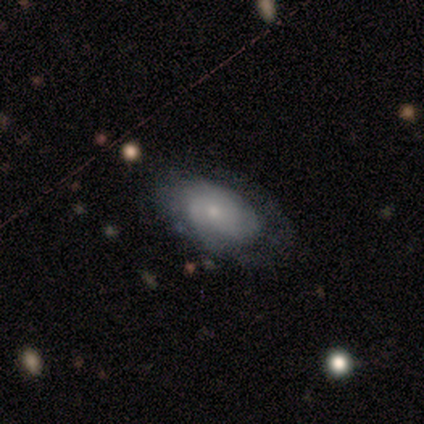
Smooth or featured?
  - featured or disk: 60% *
  - smooth: 20%
  - star or artifact: 20%
Edge-on disk?
  - no: 100% *
  - yes: 0%
Bar?
  - no: 100% *
  - strong: 0%
  - weak: 0%
Spiral arms?
  - yes: 67% *
  - no: 33%
Spiral winding?
  - tight: 50% * (tied)
  - medium: 50% * (tied)
  - loose: 0%
Spiral arm count?
  - 2: 50% * (tied)
  - 3: 50% * (tied)
  - 1: 0%
  - 4: 0%
  - more than 4: 0%
  - can't tell: 0%
Bulge size?
  - small: 100% *
  - dominant: 0%
  - large: 0%
  - moderate: 0%
  - none: 0%
Merging?
  - major disturbance: 50% *
  - none: 25%
  - minor disturbance: 25%
  - merger: 0%